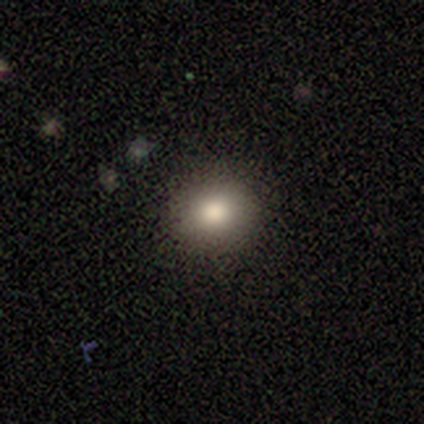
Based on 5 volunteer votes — Q: Smooth or featured?
A: smooth (100%)
Q: How rounded?
A: round (80%); runner-up: in between (20%)
Q: Merging?
A: none (100%)